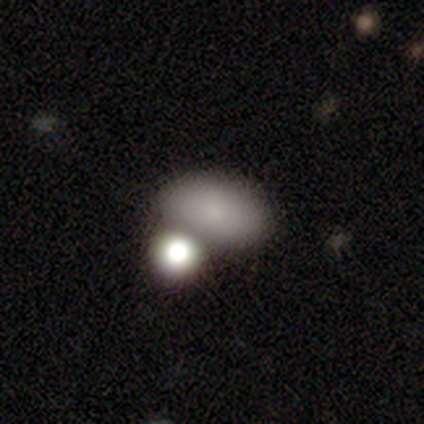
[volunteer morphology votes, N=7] type=smooth (71%); roundness=in between (100%); merging=none (43%).